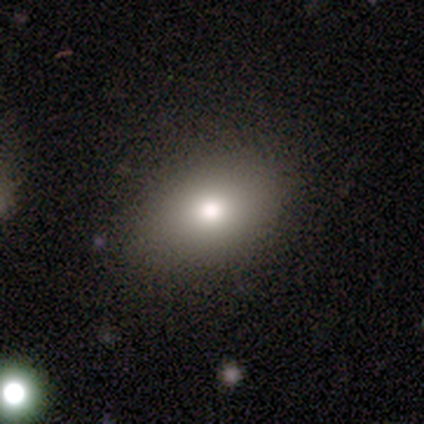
Smooth or featured? smooth (80%)
How rounded? in between (81%)
Merging? none (100%)